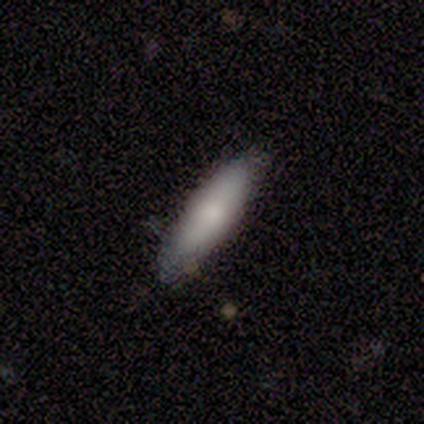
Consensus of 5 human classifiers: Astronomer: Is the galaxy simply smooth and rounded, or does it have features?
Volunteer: smooth — 80%.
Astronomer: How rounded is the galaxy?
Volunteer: cigar-shaped — 100%.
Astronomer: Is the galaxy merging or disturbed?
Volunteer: none — 100%.